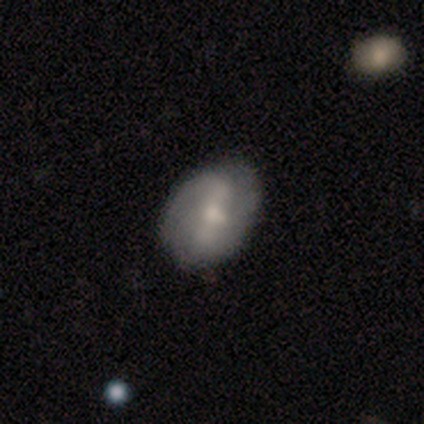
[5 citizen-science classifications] Smooth or featured? featured or disk (60%)
Edge-on disk? no (100%)
Bar? strong (67%)
Spiral arms? yes (67%)
Spiral winding? medium (50%, tied with loose)
Spiral arm count? 2 (100%)
Bulge size? moderate (100%)
Merging? none (80%)